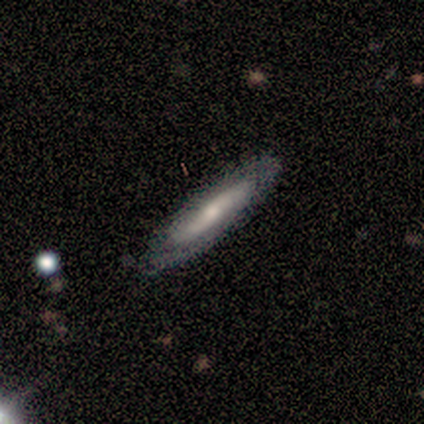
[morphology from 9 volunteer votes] Smooth or featured?
  - featured or disk: 89% *
  - smooth: 11%
  - star or artifact: 0%
Edge-on disk?
  - no: 62% *
  - yes: 38%
Bar?
  - no: 100% *
  - strong: 0%
  - weak: 0%
Spiral arms?
  - no: 80% *
  - yes: 20%
Bulge size?
  - small: 60% *
  - moderate: 20%
  - none: 20%
  - dominant: 0%
  - large: 0%
Merging?
  - none: 100% *
  - minor disturbance: 0%
  - major disturbance: 0%
  - merger: 0%